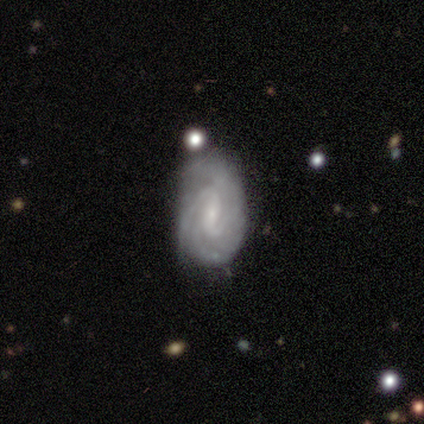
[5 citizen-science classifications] This is clearly a featured or disk galaxy (80%). It is clearly not viewed edge-on (100%). Bar: possibly no (50%). Spiral arm pattern: clearly yes (100%). Spiral arm count: possibly 4 (50%). Spiral winding: possibly tight (50%, tied with medium). Central bulge: possibly moderate (50%, tied with small). Merging: likely none (60%).